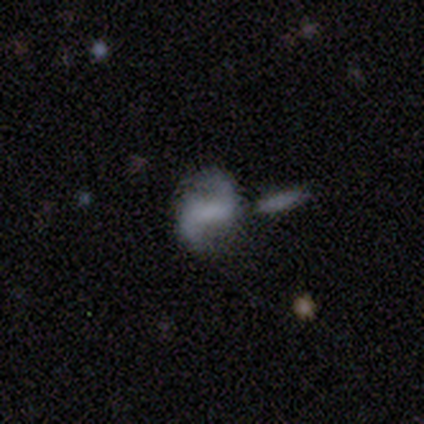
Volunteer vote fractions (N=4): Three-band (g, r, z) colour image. It shows a featured or disk galaxy (100%) with a strong bar (50%), 2 (100%) loose (75%) spiral arms (100%) and no central bulge (75%). Merging: none (75%).